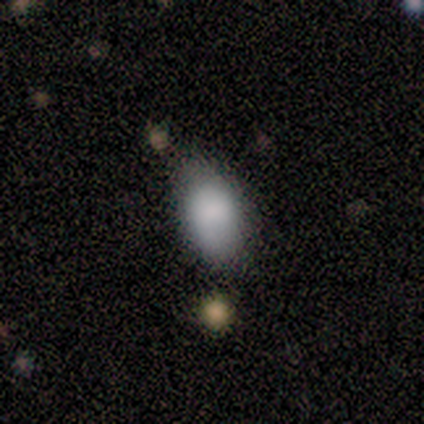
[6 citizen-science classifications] smooth 67%, star or artifact 33%, featured or disk 0%. Down the decision tree: how rounded — in between (100%); merging — none (75%).